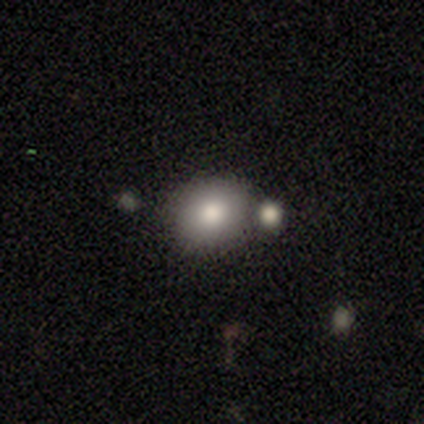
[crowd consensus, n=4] This is possibly a smooth galaxy (50%). How rounded: possibly round (50%, tied with in between). Merging: marginally none (33%, tied with major disturbance and merger).